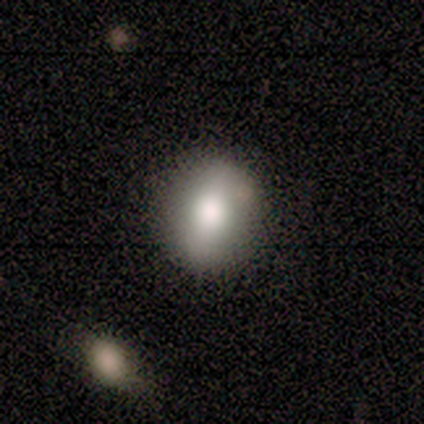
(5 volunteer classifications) Q: Smooth or featured?
A: smooth (80%); runner-up: star or artifact (20%)
Q: How rounded?
A: round (50%); tied with: in between (50%)
Q: Merging?
A: none (100%)